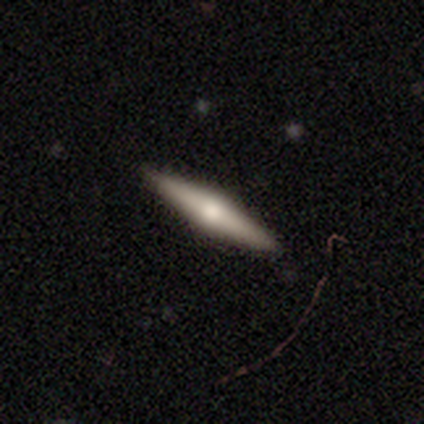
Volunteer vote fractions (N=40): A featured or disk galaxy (60%) viewed edge-on (96%) with a rounded central bulge (96%).

Vote fractions:
- Smooth or featured? featured or disk: 60% / smooth: 38% / star or artifact: 2%
- Edge-on disk? yes: 96% / no: 4%
- Edge-on bulge? rounded: 96% / none: 4% / boxy: 0%
- Merging? none: 69% / minor disturbance: 5% / major disturbance: 0% / merger: 0%